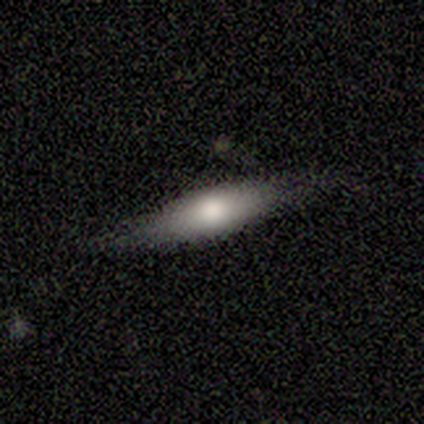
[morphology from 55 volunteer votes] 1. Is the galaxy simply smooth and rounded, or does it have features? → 71% smooth, 27% featured or disk, 2% star or artifact.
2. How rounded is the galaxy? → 69% cigar-shaped, 31% in between, 0% round.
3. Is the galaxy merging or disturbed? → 76% none, 20% minor disturbance, 2% major disturbance, 2% merger.